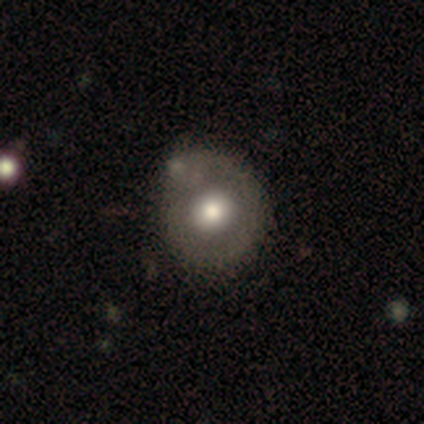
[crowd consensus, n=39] Smooth or featured? 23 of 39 (59%) said smooth. How rounded? 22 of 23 (96%) said round. Merging? 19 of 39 (49%) said none.